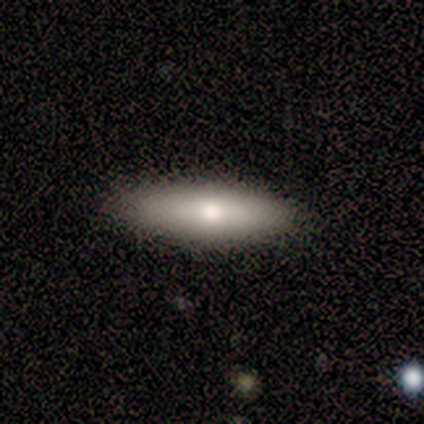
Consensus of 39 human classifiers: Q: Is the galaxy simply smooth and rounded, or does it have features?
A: smooth — 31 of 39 (79%).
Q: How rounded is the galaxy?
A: in between — 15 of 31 (48%, tied with cigar-shaped).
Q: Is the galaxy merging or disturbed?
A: none — 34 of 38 (89%).